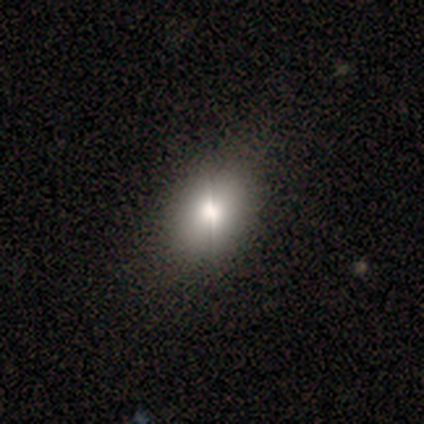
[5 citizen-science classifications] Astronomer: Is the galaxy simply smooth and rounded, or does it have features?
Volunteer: smooth — 80%.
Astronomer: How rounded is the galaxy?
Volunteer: round — 50%, tied with in between at 50%.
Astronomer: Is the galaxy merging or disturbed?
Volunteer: none — 50%, tied with minor disturbance at 50%.